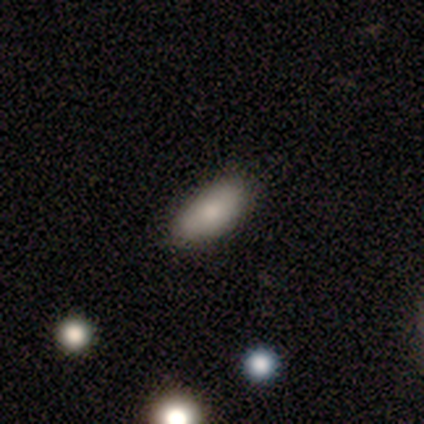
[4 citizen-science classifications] A smooth galaxy with no disk features (75%) that is in between round and cigar-shaped (100%).

Vote fractions:
- Smooth or featured? smooth: 75% / featured or disk: 25% / star or artifact: 0%
- How rounded? in between: 100% / round: 0% / cigar-shaped: 0%
- Merging? none: 100% / minor disturbance: 0% / major disturbance: 0% / merger: 0%